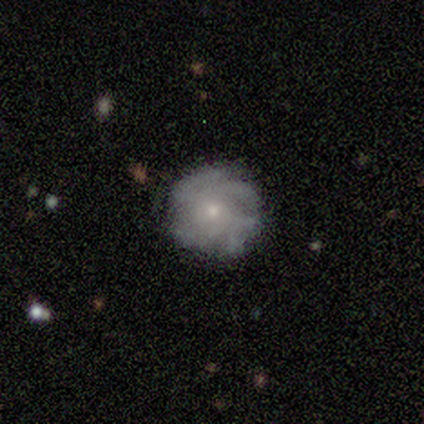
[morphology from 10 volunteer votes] featured or disk 80%, smooth 10%, star or artifact 10%. Down the decision tree: edge-on disk — no (100%); bar — no (75%); spiral arms — yes (88%); spiral arm count — can't tell (86%); spiral winding — tight (86%); bulge size — small (88%); merging — none (56%).